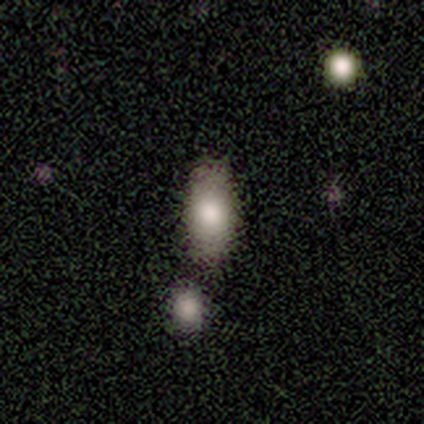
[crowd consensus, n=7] smooth_or_featured: smooth (p=0.86) [alt: featured or disk p=0.14]
how_rounded: in between (p=1.00)
merging: minor disturbance (p=0.57) [alt: none p=0.43]